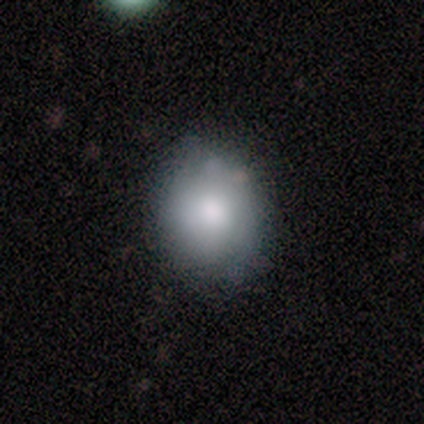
Volunteers were most divided on "how rounded" (2-way tie): round: 50%, in between: 50%, cigar-shaped: 0%. More confident: smooth or featured — smooth (100%); merging — none (83%).